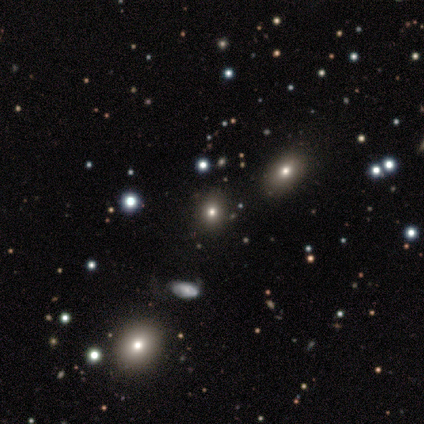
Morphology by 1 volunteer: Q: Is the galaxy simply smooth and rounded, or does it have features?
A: smooth — 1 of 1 (100%).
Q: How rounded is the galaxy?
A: in between — 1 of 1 (100%).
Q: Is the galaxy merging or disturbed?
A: none — 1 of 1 (100%).